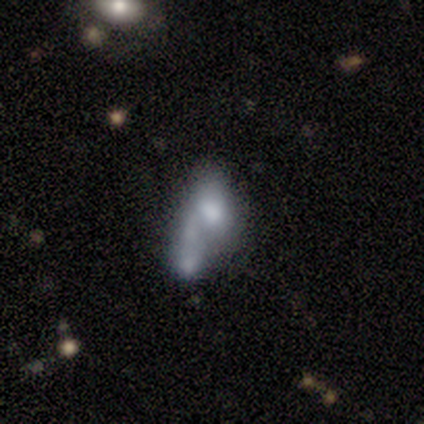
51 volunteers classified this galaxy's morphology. A smooth galaxy with no disk features (55%) that is in between round and cigar-shaped (89%). Merging: merger (65%).